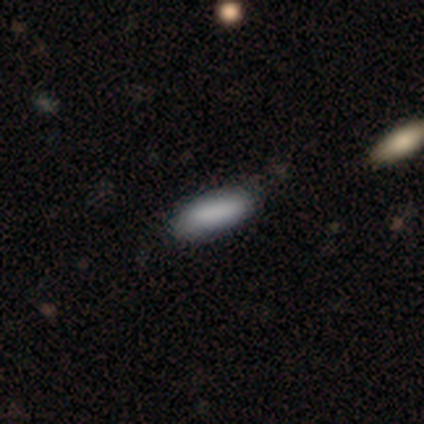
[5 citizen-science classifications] Overall: smooth (100%). How rounded: in between (60%; cigar-shaped 40%). Merging: none (80%).